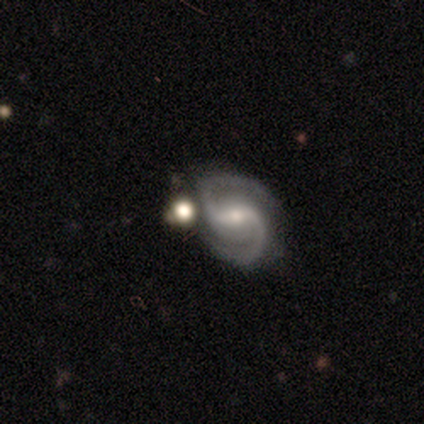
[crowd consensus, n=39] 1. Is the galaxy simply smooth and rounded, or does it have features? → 92% featured or disk, 8% star or artifact, 0% smooth.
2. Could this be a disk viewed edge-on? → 100% no, 0% yes.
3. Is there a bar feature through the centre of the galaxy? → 47% strong, 39% weak, 14% no.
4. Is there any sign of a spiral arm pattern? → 100% yes, 0% no.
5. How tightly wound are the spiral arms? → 56% medium, 28% tight, 17% loose.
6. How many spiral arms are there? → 94% 2, 3% 3, 3% can't tell, 0% 1, 0% 4, 0% more than 4.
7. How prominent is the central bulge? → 50% small, 42% moderate, 6% none, 3% dominant, 0% large.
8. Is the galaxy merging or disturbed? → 50% none, 22% minor disturbance, 17% merger, 11% major disturbance.